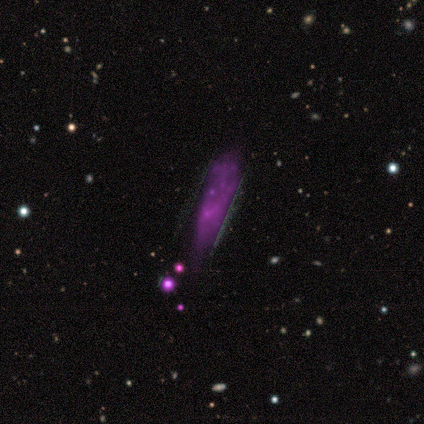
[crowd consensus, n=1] Smooth or featured? featured or disk (100%)
Edge-on disk? yes (100%)
Edge-on bulge? rounded (100%)
Merging? merger (100%)